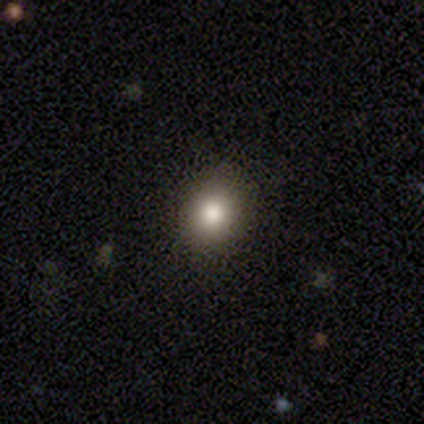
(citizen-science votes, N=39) Smooth or featured? 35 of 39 (90%) said smooth. How rounded? 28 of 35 (80%) said round. Merging? 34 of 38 (89%) said none.